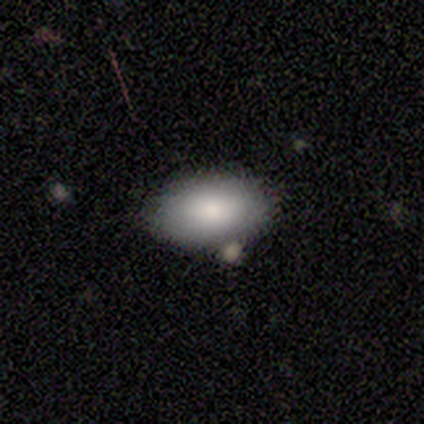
smooth 75%, featured or disk 25%, star or artifact 0%. Down the decision tree: how rounded — in between (100%); merging — none (100%).